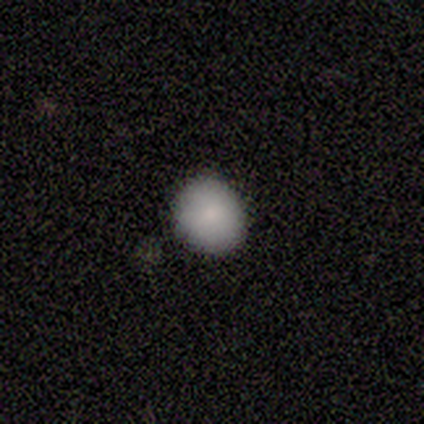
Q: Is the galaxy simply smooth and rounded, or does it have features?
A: smooth — 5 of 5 (100%).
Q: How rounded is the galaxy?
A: round — 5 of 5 (100%).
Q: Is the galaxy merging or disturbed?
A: none — 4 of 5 (80%).